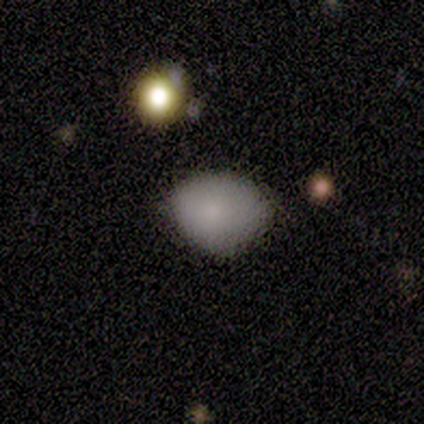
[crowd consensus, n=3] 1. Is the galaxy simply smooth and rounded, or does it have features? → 100% smooth, 0% featured or disk, 0% star or artifact.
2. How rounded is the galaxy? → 67% round, 33% in between, 0% cigar-shaped.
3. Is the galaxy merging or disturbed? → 67% none, 33% minor disturbance, 0% major disturbance, 0% merger.